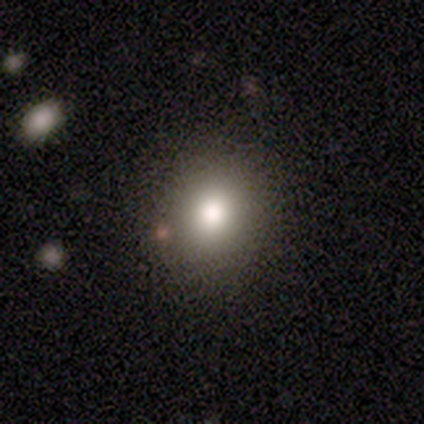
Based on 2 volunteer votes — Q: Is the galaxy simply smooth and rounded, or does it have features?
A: smooth — 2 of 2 (100%).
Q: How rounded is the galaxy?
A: round — 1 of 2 (50%, tied with in between).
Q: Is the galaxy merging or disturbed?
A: minor disturbance — 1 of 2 (50%, tied with major disturbance).